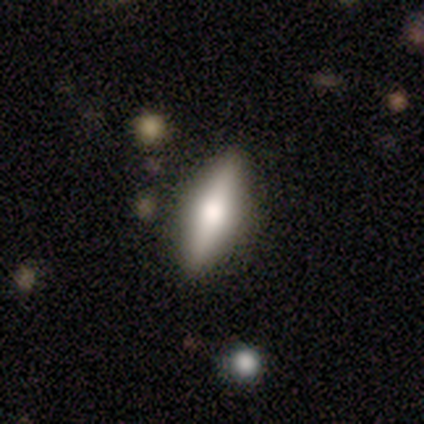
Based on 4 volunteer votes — A featured or disk galaxy (75%) viewed edge-on (67%) with a rounded central bulge (100%). Merging: none (67%).